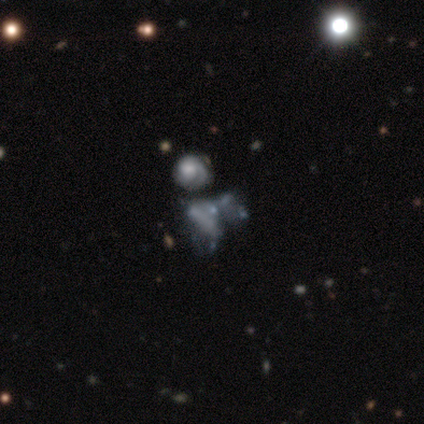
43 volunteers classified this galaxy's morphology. Smooth or featured: featured or disk — 70% (star or artifact — 16%)
Edge-on disk: no — 93% (yes — 7%)
Bar: no — 93% (strong — 4%)
Spiral arms: no — 82% (yes — 18%)
Bulge size: none — 64% (moderate — 18%)
Merging: merger — 39% (major disturbance — 31%)